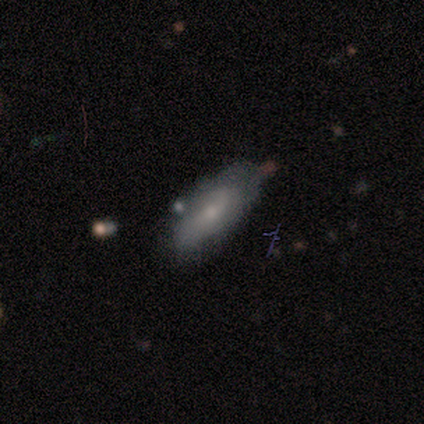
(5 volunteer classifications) This appears to be a featured or disk galaxy (100%) with a weak bar (50%, tied with no), 2 (50%, tied with can't tell) tight (50%, tied with medium) spiral arms (50%, tied with no) and a small central bulge (75%). Merging: minor disturbance (80%).